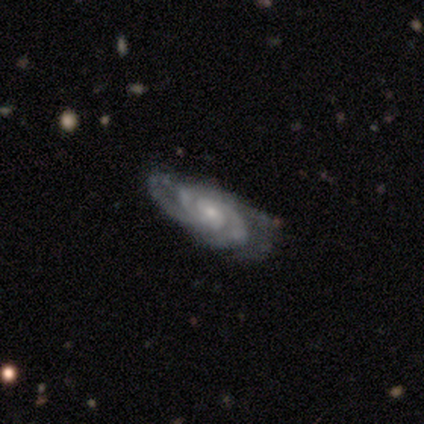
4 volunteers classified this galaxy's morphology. Q: Smooth or featured?
A: featured or disk (100%)
Q: Edge-on disk?
A: no (100%)
Q: Bar?
A: no (100%)
Q: Spiral arms?
A: yes (100%)
Q: Spiral winding?
A: tight (50%); tied with: medium (50%)
Q: Spiral arm count?
A: can't tell (50%); runner-up: 2 (25%)
Q: Bulge size?
A: moderate (50%); tied with: small (50%)
Q: Merging?
A: none (75%); runner-up: major disturbance (25%)